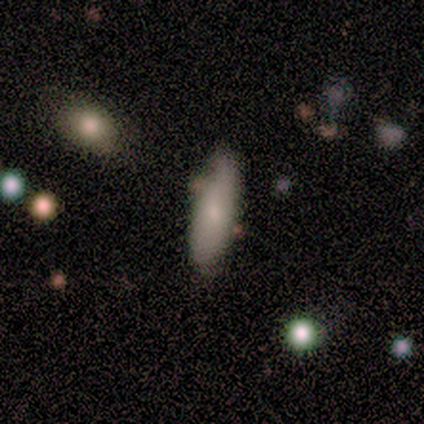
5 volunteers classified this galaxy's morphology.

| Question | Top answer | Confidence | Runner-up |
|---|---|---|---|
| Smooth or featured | smooth | 60% | featured or disk (40%) |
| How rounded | in between | 67% | cigar-shaped (33%) |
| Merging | none | 80% | minor disturbance (20%) |